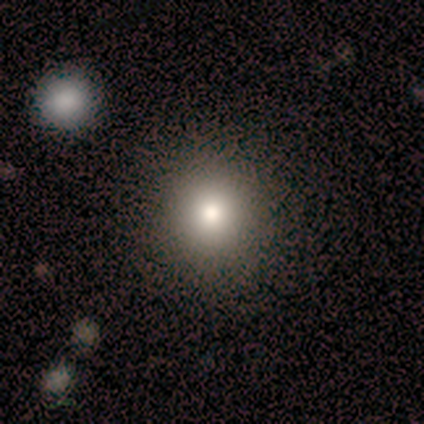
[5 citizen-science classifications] Morphology: type=smooth (100%); roundness=round (80%); merging=none (80%).